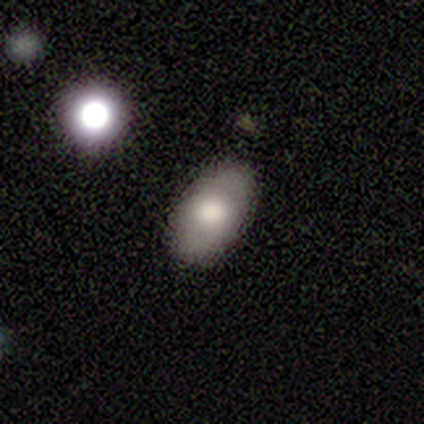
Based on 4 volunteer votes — Smooth or featured? 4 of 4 (100%) said smooth. How rounded? 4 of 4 (100%) said in between. Merging? 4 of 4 (100%) said none.